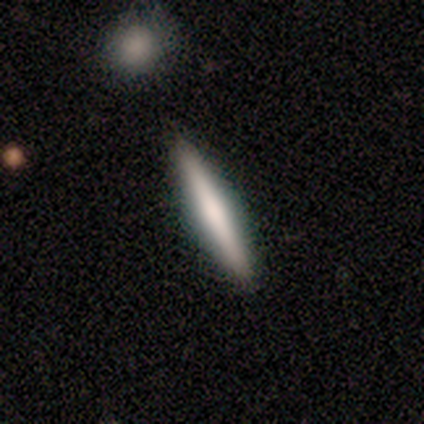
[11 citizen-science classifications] Smooth or featured? smooth (55%)
How rounded? cigar-shaped (100%)
Merging? none (100%)